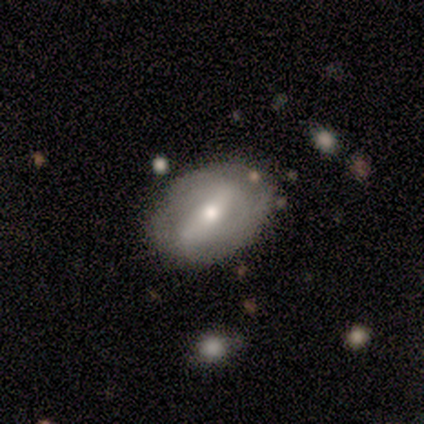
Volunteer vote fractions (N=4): smooth 50% (tied), featured or disk 50% (tied), star or artifact 0%. Down the decision tree: how rounded — in between (100%); merging — none (75%).